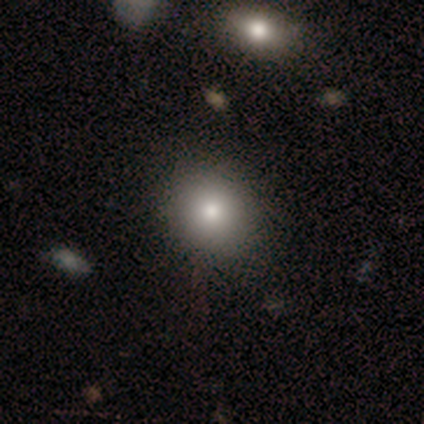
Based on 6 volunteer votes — Smooth or featured?
  - smooth: 83% *
  - star or artifact: 17%
  - featured or disk: 0%
How rounded?
  - round: 100% *
  - in between: 0%
  - cigar-shaped: 0%
Merging?
  - none: 80% *
  - minor disturbance: 20%
  - major disturbance: 0%
  - merger: 0%